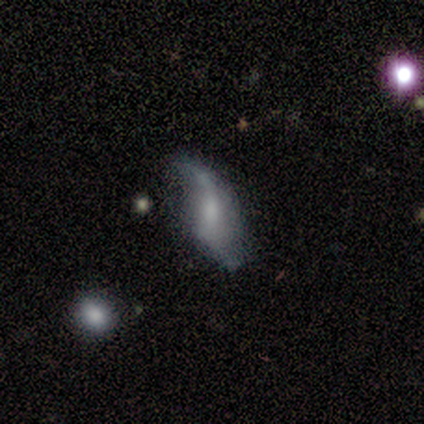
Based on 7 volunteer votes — This is clearly a featured or disk galaxy (100%). It is clearly not viewed edge-on (100%). Bar: possibly no (57%). Spiral arm pattern: possibly yes (57%). Spiral arm count: clearly 2 (100%). Spiral winding: clearly loose (100%). Central bulge: possibly small (57%). Merging: possibly none (57%).